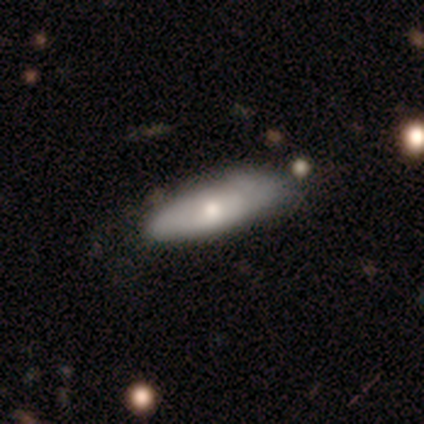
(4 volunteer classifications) Overall: featured or disk (75%). Edge-on disk: no (67%; yes 33%). Bar: no (100%). Spiral arms: no (100%). Bulge size: moderate (50%, tied with small). Merging: minor disturbance (50%; none 25%).